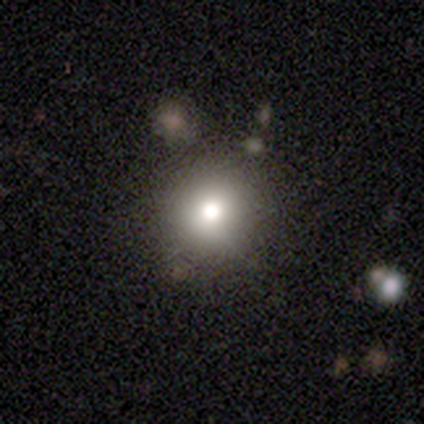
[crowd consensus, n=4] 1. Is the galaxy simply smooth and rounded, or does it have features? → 50% smooth, 25% featured or disk, 25% star or artifact.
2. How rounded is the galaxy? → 100% round, 0% in between, 0% cigar-shaped.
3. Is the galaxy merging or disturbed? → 100% none, 0% minor disturbance, 0% major disturbance, 0% merger.